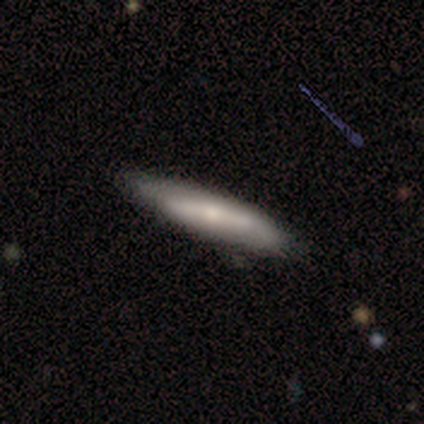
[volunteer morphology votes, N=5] Smooth or featured: featured or disk — 60% (smooth — 40%)
Edge-on disk: yes — 67% (no — 33%)
Edge-on bulge: boxy — 50% (tied with rounded — 50%)
Merging: minor disturbance — 60% (none — 40%)